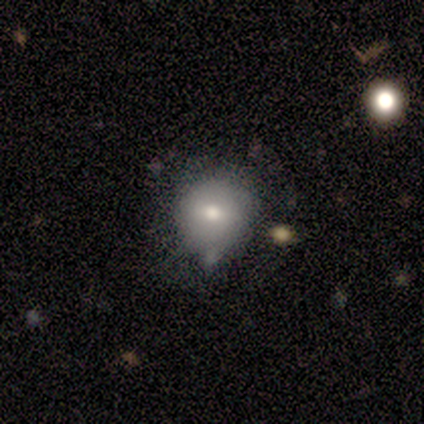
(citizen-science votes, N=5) Smooth or featured? smooth (100%)
How rounded? round (80%)
Merging? none (60%)